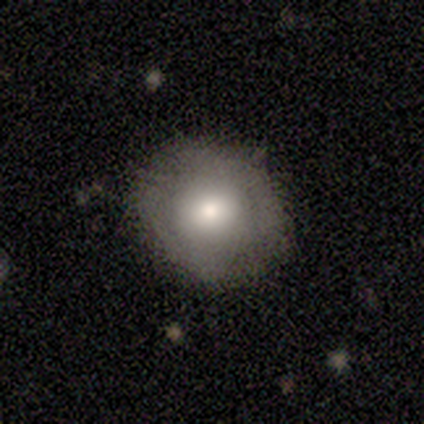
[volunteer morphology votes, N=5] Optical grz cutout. It shows a featured or disk galaxy (60%) with no bar (100%), no spiral arms (67%) and a moderate central bulge (67%). Merging: none (100%).